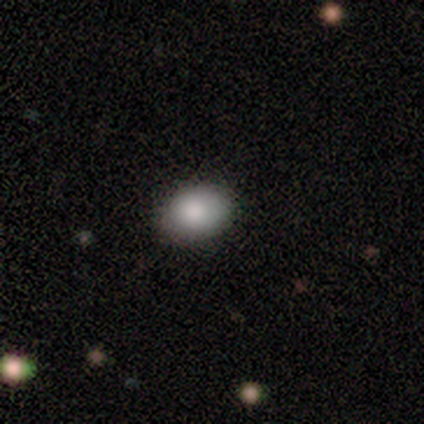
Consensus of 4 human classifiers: This appears to be a smooth galaxy with no disk features (75%) that is in between round and cigar-shaped (100%). Merging: none (100%).